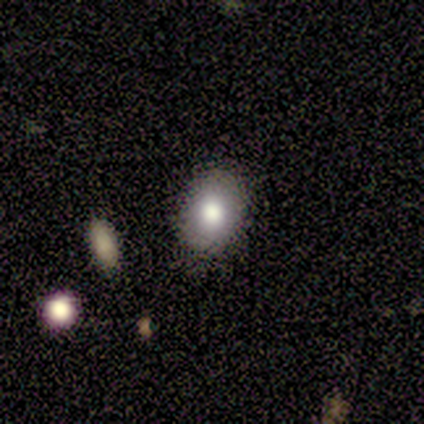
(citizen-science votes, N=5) This appears to be a smooth galaxy with no disk features (80%) that is in between round and cigar-shaped (100%). Merging: none (75%).